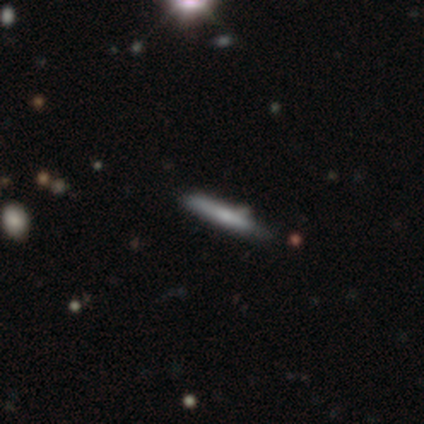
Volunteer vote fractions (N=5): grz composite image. It shows a featured or disk galaxy (60%) viewed edge-on (100%) with no central bulge (67%). Merging: none (40%, tied with minor disturbance).